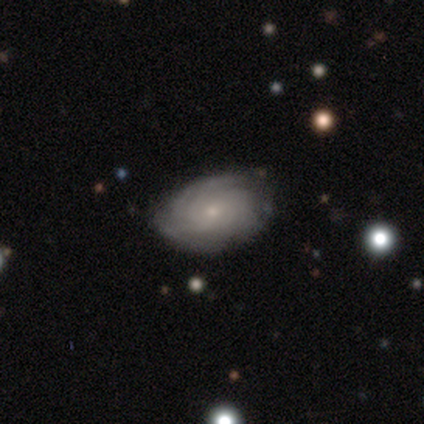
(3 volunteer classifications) A featured or disk galaxy (67%) with no bar (100%), 2 (50%, tied with 3) tight (100%) spiral arms (100%) and a small central bulge (100%).

Vote fractions:
- Smooth or featured? featured or disk: 67% / smooth: 33% / star or artifact: 0%
- Edge-on disk? no: 100% / yes: 0%
- Bar? no: 100% / strong: 0% / weak: 0%
- Spiral arms? yes: 100% / no: 0%
- Spiral winding? tight: 100% / medium: 0% / loose: 0%
- Spiral arm count? 2: 50% (tied) / 3: 50% (tied) / 1: 0% / 4: 0% / more than 4: 0% / can't tell: 0%
- Bulge size? small: 100% / dominant: 0% / large: 0% / moderate: 0% / none: 0%
- Merging? none: 100% / minor disturbance: 0% / major disturbance: 0% / merger: 0%